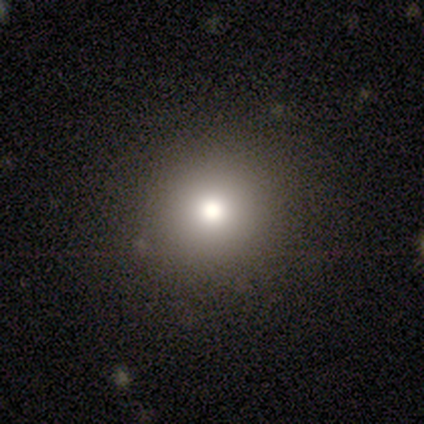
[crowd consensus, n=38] Smooth or featured: smooth — 79% (star or artifact — 16%)
How rounded: round — 97% (in between — 3%)
Merging: none — 91% (major disturbance — 6%)